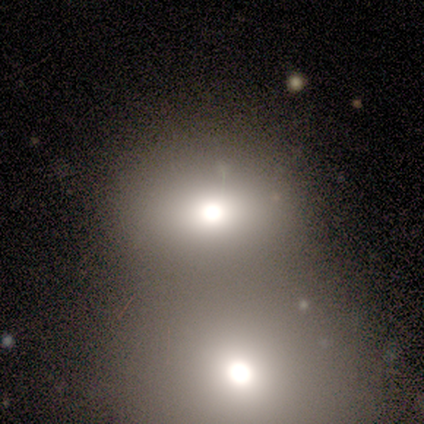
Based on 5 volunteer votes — Volunteers were most divided on "smooth or featured": smooth: 80%, featured or disk: 20%, star or artifact: 0%. More confident: how rounded — round (100%); merging — merger (80%).